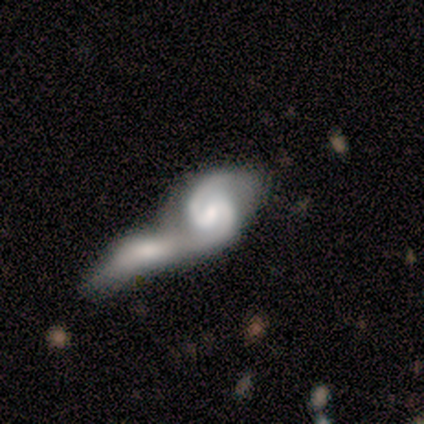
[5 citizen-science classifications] Smooth or featured? featured or disk (80%)
Edge-on disk? no (100%)
Bar? no (75%)
Spiral arms? yes (75%)
Spiral winding? tight (67%)
Spiral arm count? 2 (100%)
Bulge size? none (50%)
Merging? merger (80%)